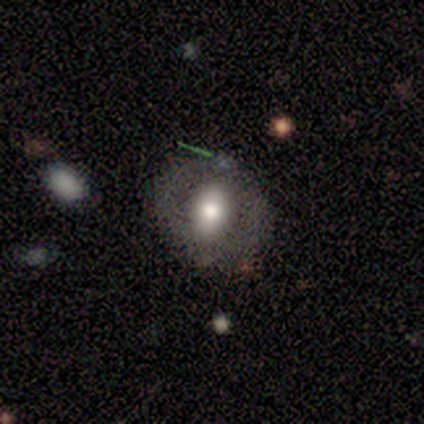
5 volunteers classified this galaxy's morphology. smooth-or-featured: smooth: 60% | featured or disk: 20% | star or artifact: 20%
  how-rounded: round: 67% | in between: 33% | cigar-shaped: 0%
  merging: none: 50% | minor disturbance: 25% | major disturbance: 25% | merger: 0%